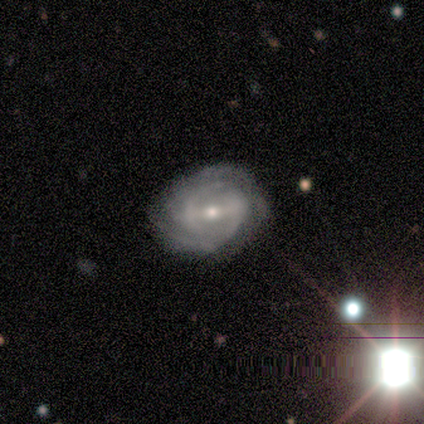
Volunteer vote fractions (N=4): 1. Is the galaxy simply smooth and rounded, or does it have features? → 100% featured or disk, 0% smooth, 0% star or artifact.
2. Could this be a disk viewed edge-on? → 100% no, 0% yes.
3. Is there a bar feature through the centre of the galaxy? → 75% strong, 25% weak, 0% no.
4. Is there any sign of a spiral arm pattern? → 100% yes, 0% no.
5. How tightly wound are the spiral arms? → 75% medium, 25% tight, 0% loose.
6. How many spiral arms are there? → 75% 2, 25% can't tell, 0% 1, 0% 3, 0% 4, 0% more than 4.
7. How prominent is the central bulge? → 50% moderate (tied), 50% small (tied), 0% dominant, 0% large, 0% none.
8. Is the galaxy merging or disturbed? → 50% none (tied), 50% minor disturbance (tied), 0% major disturbance, 0% merger.